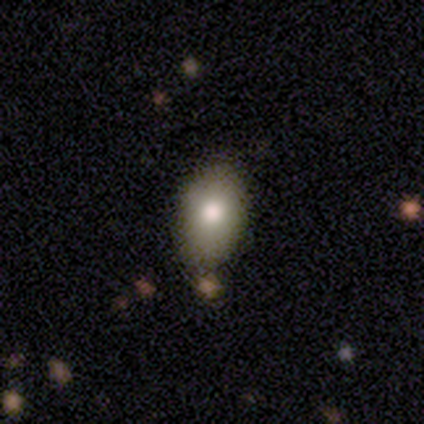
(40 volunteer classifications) A smooth galaxy with no disk features (85%) that is in between round and cigar-shaped (85%).

Vote fractions:
- Smooth or featured? smooth: 85% / star or artifact: 10% / featured or disk: 5%
- How rounded? in between: 85% / round: 12% / cigar-shaped: 3%
- Merging? none: 67% / minor disturbance: 28% / merger: 6% / major disturbance: 0%